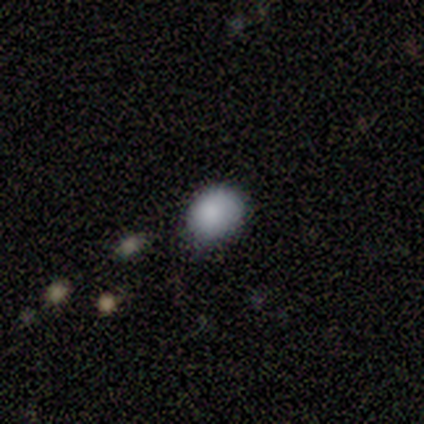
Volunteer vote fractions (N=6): This appears to be a smooth galaxy with no disk features (83%) that is in between round and cigar-shaped (60%). Merging: none (60%).